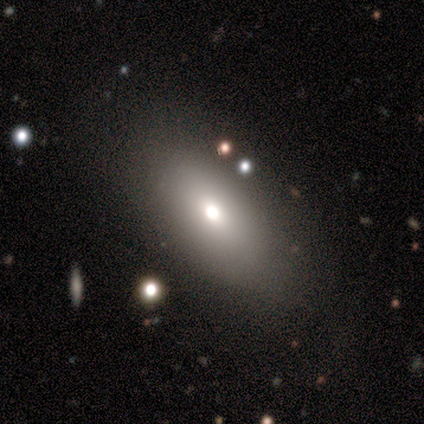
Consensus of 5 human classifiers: smooth 60%, featured or disk 40%, star or artifact 0%. Down the decision tree: how rounded — in between (67%); merging — none (100%).